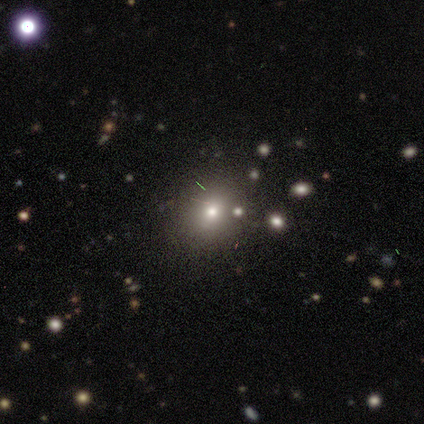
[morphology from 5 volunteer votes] smooth-or-featured: smooth: 80% | star or artifact: 20% | featured or disk: 0%
  how-rounded: round: 50% (tied) | in between: 50% (tied) | cigar-shaped: 0%
  merging: none: 75% | minor disturbance: 25% | major disturbance: 0% | merger: 0%